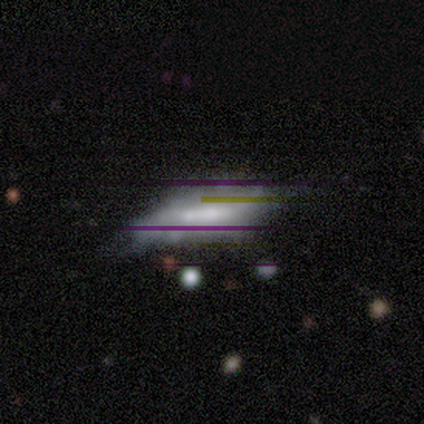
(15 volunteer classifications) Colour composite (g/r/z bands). It shows a featured or disk galaxy (47%) with no bar (50%), no spiral arms (100%) and a moderate central bulge (75%). Merging: minor disturbance (54%).